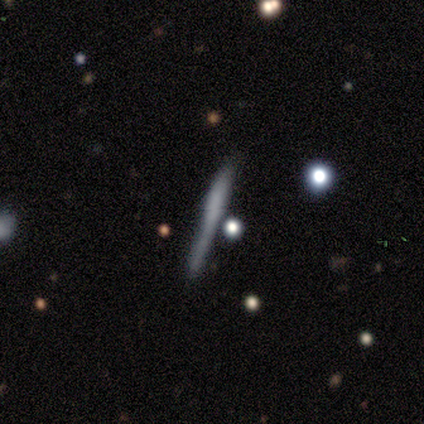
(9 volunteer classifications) A featured or disk galaxy (56%) viewed edge-on (100%) with no central bulge (40%, tied with rounded). Merging: none (57%).